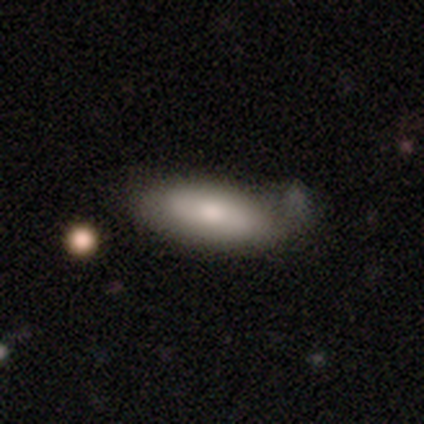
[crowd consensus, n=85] Overall: smooth (69%). How rounded: in between (63%; cigar-shaped 36%). Merging: none (54%; minor disturbance 37%).